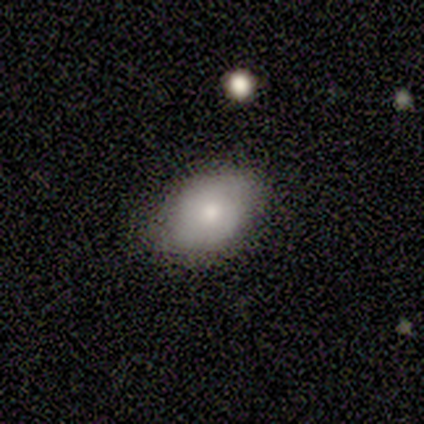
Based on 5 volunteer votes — Morphology: type=smooth (100%); roundness=in between (100%); merging=none (80%).